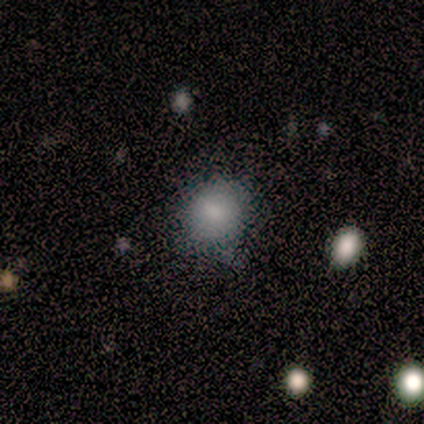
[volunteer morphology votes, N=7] Smooth or featured? 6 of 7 (86%) said smooth. How rounded? 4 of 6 (67%) said round. Merging? 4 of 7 (57%) said none.